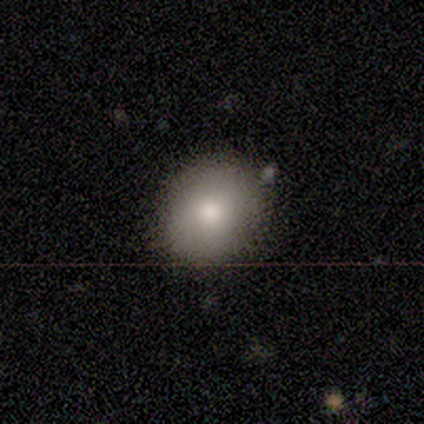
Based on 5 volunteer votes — Volunteers were most divided on "how rounded": round: 80%, in between: 20%, cigar-shaped: 0%. More confident: smooth or featured — smooth (100%); merging — none (80%).